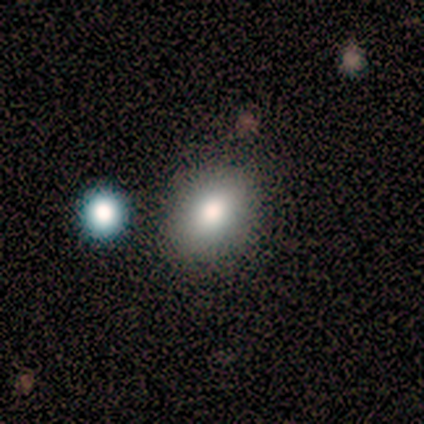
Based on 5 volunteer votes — Morphology: type=smooth (80%); roundness=round (50%, tied with in between); merging=none (100%).